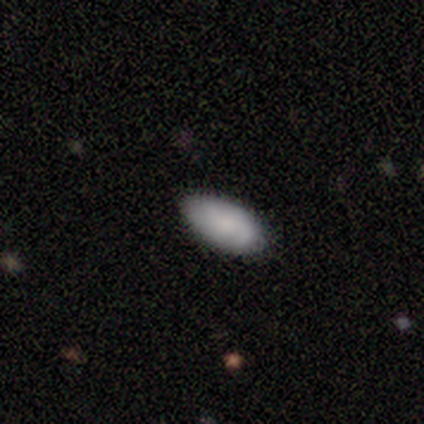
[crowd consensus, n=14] Volunteers were most divided on "merging": none: 62%, minor disturbance: 38%, major disturbance: 0%, merger: 0%. More confident: how rounded — in between (100%); smooth or featured — smooth (79%).